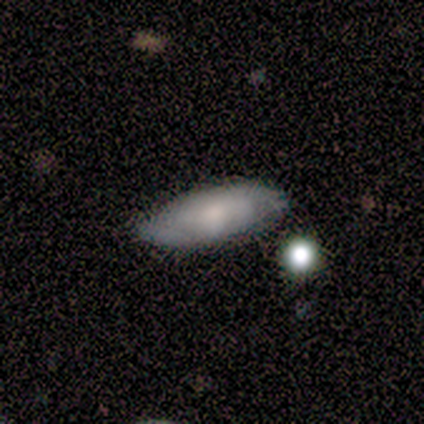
Smooth or featured? smooth (40%, tied with featured or disk)
How rounded? in between (50%, tied with cigar-shaped)
Merging? none (100%)